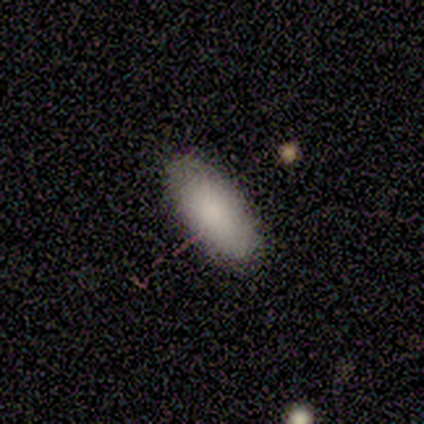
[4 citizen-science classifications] smooth 100%, featured or disk 0%, star or artifact 0%. Down the decision tree: how rounded — in between (100%); merging — none (100%).